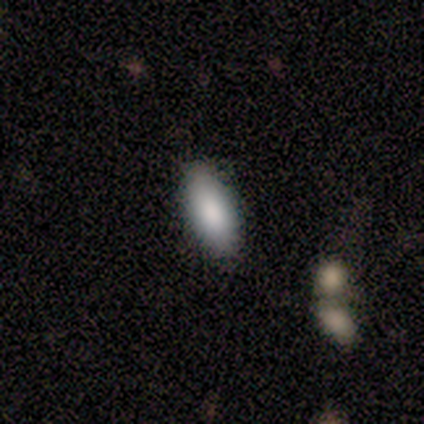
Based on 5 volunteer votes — smooth 100%, featured or disk 0%, star or artifact 0%. Down the decision tree: how rounded — in between (80%); merging — none (100%).